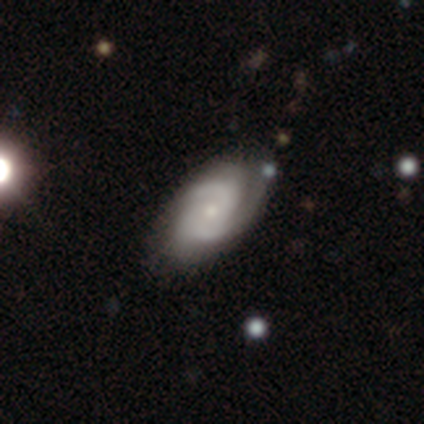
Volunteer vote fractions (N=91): featured or disk 81%, smooth 15%, star or artifact 3%. Down the decision tree: edge-on disk — no (93%); bar — no (72%); spiral arms — yes (96%); spiral arm count — 2 (48%); spiral winding — tight (47%, tied with medium); bulge size — small (68%); merging — none (81%).